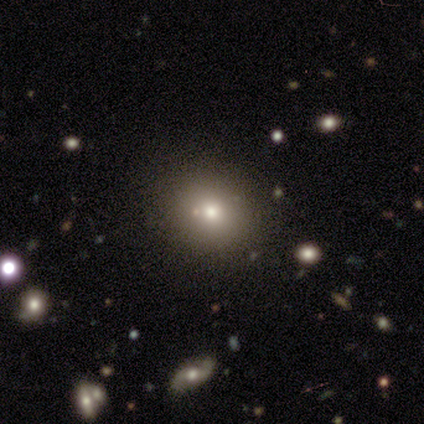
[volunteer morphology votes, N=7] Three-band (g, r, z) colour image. It shows a smooth galaxy with no disk features (57%) that is round (100%). Merging: none (100%).